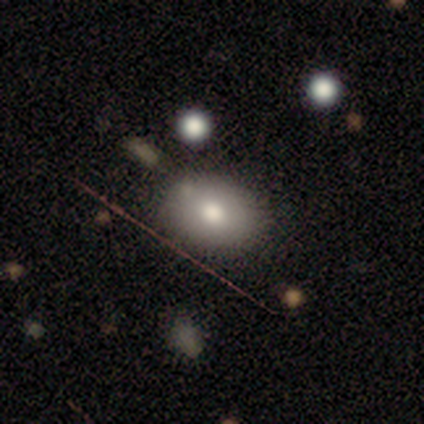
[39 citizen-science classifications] This appears to be a smooth galaxy with no disk features (82%) that is in between round and cigar-shaped (69%). Merging: none (55%).